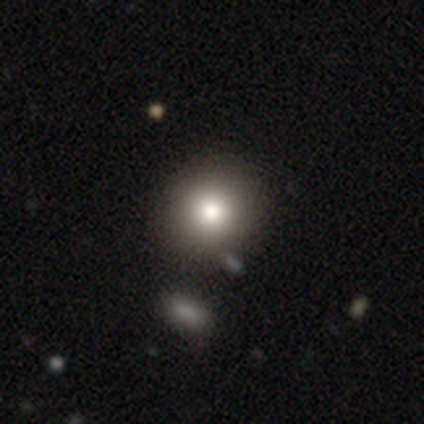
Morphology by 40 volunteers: This appears to be a smooth galaxy with no disk features (55%) that is round (95%). Merging: none (52%).